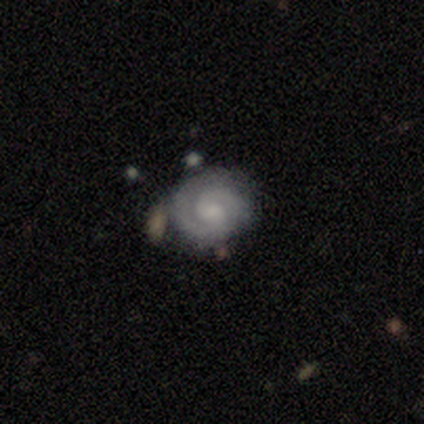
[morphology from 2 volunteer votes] A featured or disk galaxy (100%) with no bar (100%), 2 (100%) tight (100%) spiral arms (100%) and a small central bulge (50%, tied with none).

Vote fractions:
- Smooth or featured? featured or disk: 100% / smooth: 0% / star or artifact: 0%
- Edge-on disk? no: 100% / yes: 0%
- Bar? no: 100% / strong: 0% / weak: 0%
- Spiral arms? yes: 100% / no: 0%
- Spiral winding? tight: 100% / medium: 0% / loose: 0%
- Spiral arm count? 2: 100% / 1: 0% / 3: 0% / 4: 0% / more than 4: 0% / can't tell: 0%
- Bulge size? small: 50% (tied) / none: 50% (tied) / dominant: 0% / large: 0% / moderate: 0%
- Merging? none: 50% (tied) / minor disturbance: 50% (tied) / major disturbance: 0% / merger: 0%